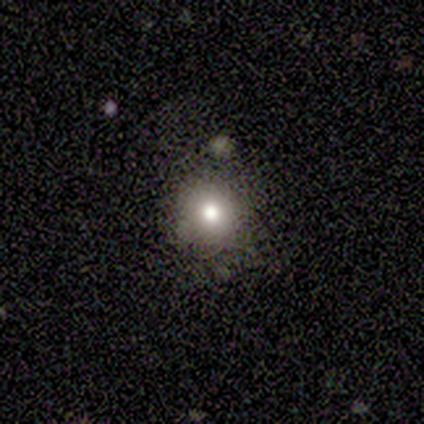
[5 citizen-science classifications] Q: Smooth or featured?
A: smooth (100%)
Q: How rounded?
A: round (80%); runner-up: in between (20%)
Q: Merging?
A: none (80%); runner-up: minor disturbance (20%)